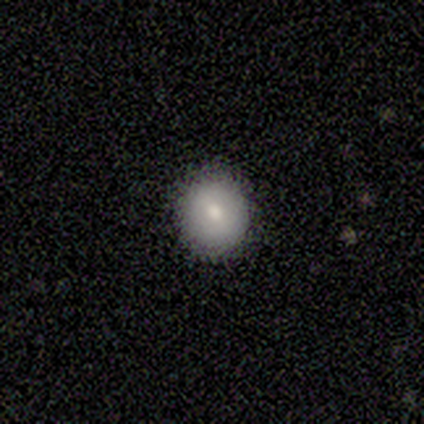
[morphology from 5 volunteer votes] Smooth or featured? smooth (60%)
How rounded? round (100%)
Merging? none (80%)